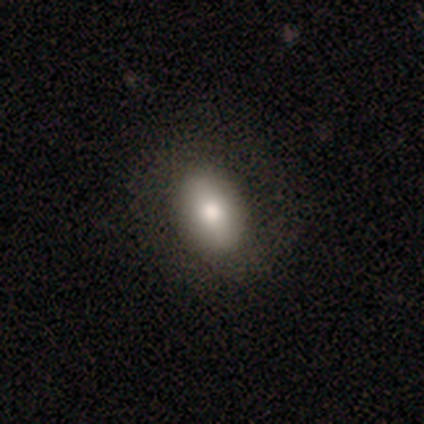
Smooth or featured? 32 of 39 (82%) said smooth. How rounded? 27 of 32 (84%) said in between. Merging? 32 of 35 (91%) said none.